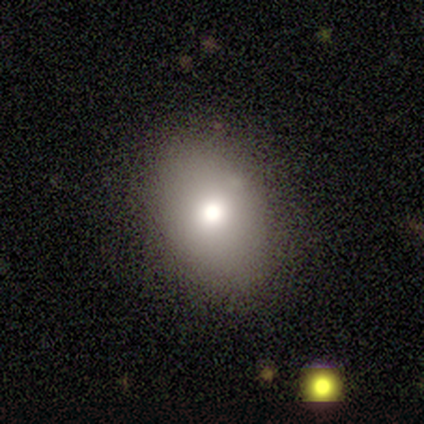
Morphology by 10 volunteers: Volunteers were most divided on "how rounded": in between: 60%, round: 40%, cigar-shaped: 0%. More confident: smooth or featured — smooth (100%); merging — none (100%).